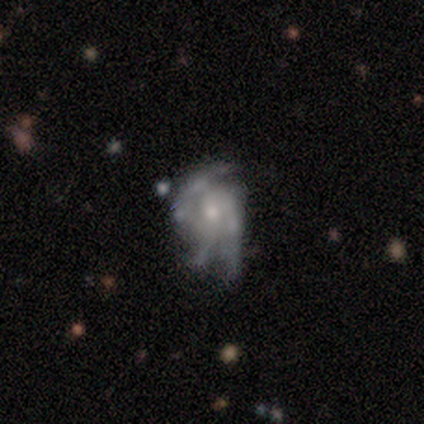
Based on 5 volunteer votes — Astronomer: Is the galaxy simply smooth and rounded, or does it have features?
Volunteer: featured or disk — 100%.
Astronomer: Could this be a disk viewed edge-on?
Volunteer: no — 100%.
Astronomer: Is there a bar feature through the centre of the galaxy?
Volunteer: no — 80%.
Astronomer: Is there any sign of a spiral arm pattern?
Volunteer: yes — 80%.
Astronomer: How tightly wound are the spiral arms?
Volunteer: loose — 50%.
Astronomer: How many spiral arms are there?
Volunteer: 3 — 50%.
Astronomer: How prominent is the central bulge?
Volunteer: small — 60%.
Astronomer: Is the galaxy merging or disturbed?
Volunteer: minor disturbance — 40%, tied with major disturbance at 40%.